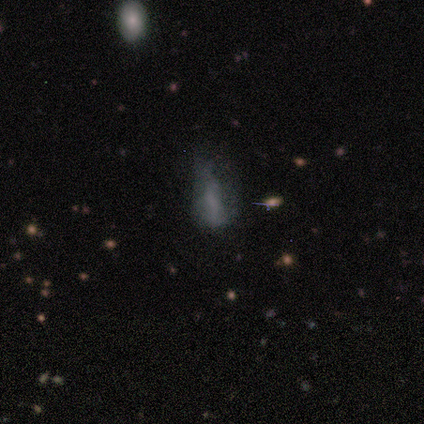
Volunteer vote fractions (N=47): This is marginally a smooth galaxy (45%, tied with featured or disk). How rounded: possibly in between (52%). Merging: marginally none (43%).